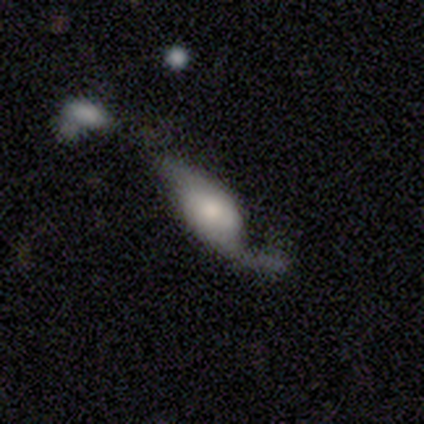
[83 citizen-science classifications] Smooth or featured?
  - featured or disk: 69% *
  - smooth: 28%
  - star or artifact: 4%
Edge-on disk?
  - no: 89% *
  - yes: 11%
Bar?
  - no: 65% *
  - weak: 27%
  - strong: 8%
Spiral arms?
  - yes: 88% *
  - no: 12%
Spiral winding?
  - loose: 87% *
  - tight: 7%
  - medium: 7%
Spiral arm count?
  - 2: 78% *
  - 1: 18%
  - can't tell: 4%
  - 3: 0%
  - 4: 0%
  - more than 4: 0%
Bulge size?
  - small: 39% *
  - moderate: 31%
  - large: 18%
  - dominant: 8%
  - none: 4%
Merging?
  - major disturbance: 41% *
  - none: 29%
  - minor disturbance: 18%
  - merger: 12%